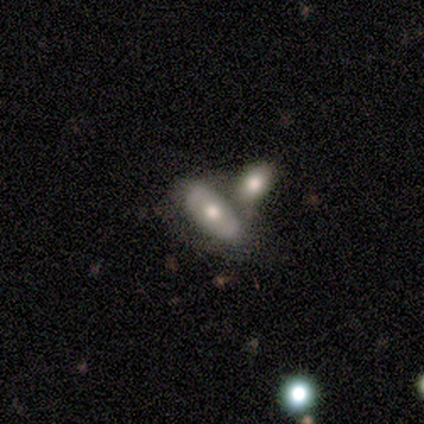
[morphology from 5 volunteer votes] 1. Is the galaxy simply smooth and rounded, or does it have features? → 80% smooth, 20% featured or disk, 0% star or artifact.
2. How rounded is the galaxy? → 100% in between, 0% round, 0% cigar-shaped.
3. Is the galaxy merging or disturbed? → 60% none, 20% minor disturbance, 20% merger, 0% major disturbance.